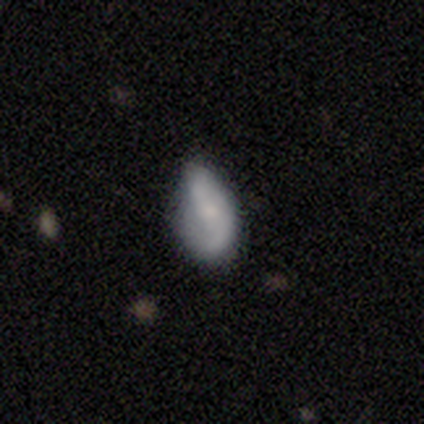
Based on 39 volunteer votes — Overall: featured or disk (49%; smooth 44%). Edge-on disk: no (100%). Bar: no (42%; weak 32%). Spiral arms: yes (89%). Spiral arm count: 2 (65%). Spiral winding: loose (71%). Bulge size: small (47%; moderate 32%). Merging: minor disturbance (42%; none 33%).